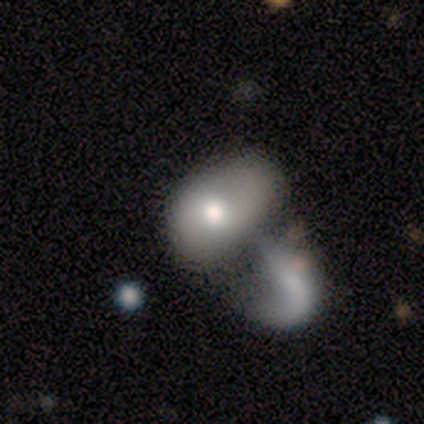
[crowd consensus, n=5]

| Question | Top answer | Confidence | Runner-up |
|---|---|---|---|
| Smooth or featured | smooth | 80% | featured or disk (20%) |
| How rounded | in between | 75% | round (25%) |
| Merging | merger | 100% | — |